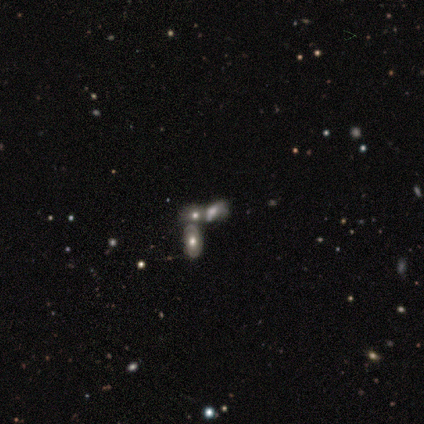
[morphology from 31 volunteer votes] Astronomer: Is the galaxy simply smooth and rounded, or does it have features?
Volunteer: featured or disk — 42% (runner-up: smooth, 35%).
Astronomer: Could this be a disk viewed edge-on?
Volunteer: no — 100%.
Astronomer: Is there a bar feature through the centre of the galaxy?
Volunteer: no — 77%.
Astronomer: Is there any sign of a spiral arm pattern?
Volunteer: no — 54% (runner-up: yes, 46%).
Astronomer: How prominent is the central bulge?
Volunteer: moderate — 62%.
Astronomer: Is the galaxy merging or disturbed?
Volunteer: merger — 54% (runner-up: none, 29%).